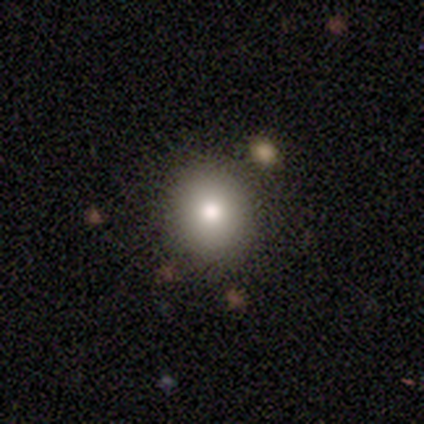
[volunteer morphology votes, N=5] This appears to be a smooth galaxy with no disk features (80%) that is round (75%). Merging: none (80%).